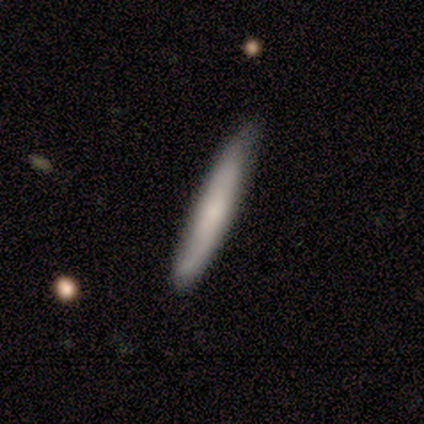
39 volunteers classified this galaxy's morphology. smooth-or-featured: smooth: 67% | featured or disk: 33% | star or artifact: 0%
  how-rounded: cigar-shaped: 92% | in between: 8% | round: 0%
  merging: none: 85% | minor disturbance: 15% | major disturbance: 0% | merger: 0%